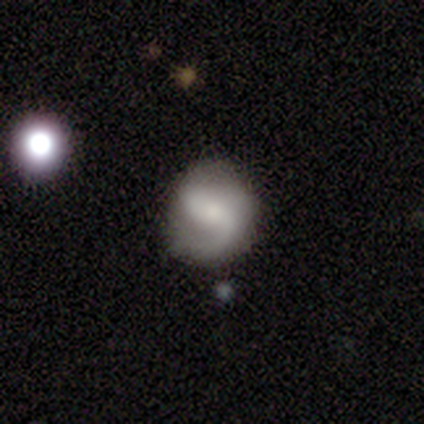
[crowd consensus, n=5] A featured or disk galaxy (60%) with a weak bar (67%), 2 (67%) medium (67%) spiral arms (100%) and a large central bulge (33%, tied with moderate and small).

Vote fractions:
- Smooth or featured? featured or disk: 60% / smooth: 40% / star or artifact: 0%
- Edge-on disk? no: 100% / yes: 0%
- Bar? weak: 67% / no: 33% / strong: 0%
- Spiral arms? yes: 100% / no: 0%
- Spiral winding? medium: 67% / loose: 33% / tight: 0%
- Spiral arm count? 2: 67% / 1: 33% / 3: 0% / 4: 0% / more than 4: 0% / can't tell: 0%
- Bulge size? large: 33% (tied) / moderate: 33% (tied) / small: 33% (tied) / dominant: 0% / none: 0%
- Merging? none: 80% / minor disturbance: 20% / major disturbance: 0% / merger: 0%